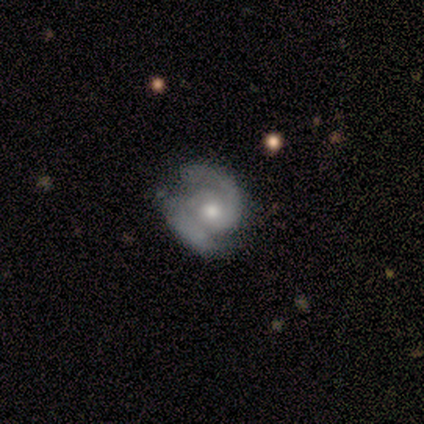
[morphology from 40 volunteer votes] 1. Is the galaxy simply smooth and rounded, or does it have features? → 95% featured or disk, 5% smooth, 0% star or artifact.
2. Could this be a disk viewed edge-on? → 100% no, 0% yes.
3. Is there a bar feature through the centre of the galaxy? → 74% no, 26% weak, 0% strong.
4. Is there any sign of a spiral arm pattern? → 100% yes, 0% no.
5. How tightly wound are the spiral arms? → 55% tight, 34% medium, 11% loose.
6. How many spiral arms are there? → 92% 2, 5% 1, 3% can't tell, 0% 3, 0% 4, 0% more than 4.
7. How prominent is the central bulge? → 68% moderate, 21% small, 11% large, 0% dominant, 0% none.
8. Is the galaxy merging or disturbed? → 30% none, 25% minor disturbance, 15% major disturbance, 2% merger.